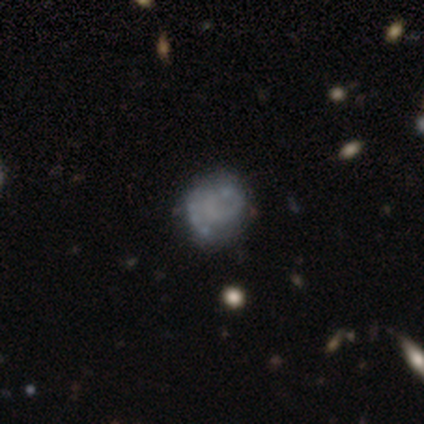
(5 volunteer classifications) A smooth galaxy with no disk features (40%, tied with featured or disk) that is round (100%).

Vote fractions:
- Smooth or featured? smooth: 40% (tied) / featured or disk: 40% (tied) / star or artifact: 20%
- How rounded? round: 100% / in between: 0% / cigar-shaped: 0%
- Merging? minor disturbance: 50% / none: 25% / major disturbance: 25% / merger: 0%